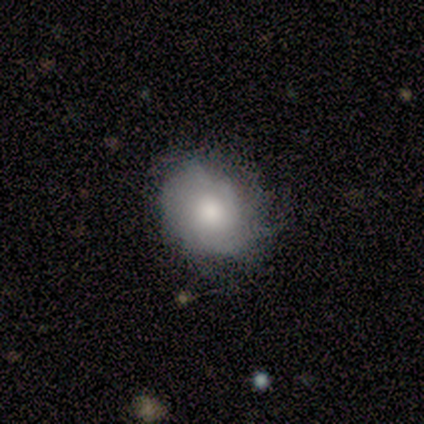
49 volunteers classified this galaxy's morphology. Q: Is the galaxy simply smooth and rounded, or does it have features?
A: smooth — 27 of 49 (55%).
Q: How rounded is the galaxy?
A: in between — 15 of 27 (56%).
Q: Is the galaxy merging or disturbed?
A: none — 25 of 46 (54%).